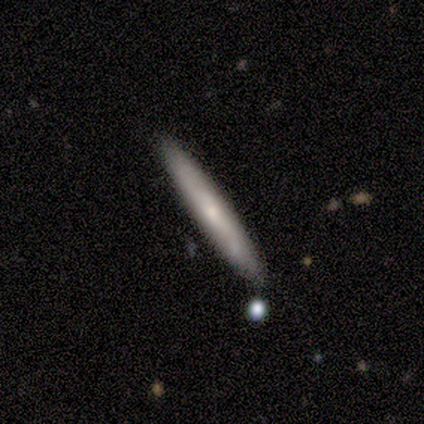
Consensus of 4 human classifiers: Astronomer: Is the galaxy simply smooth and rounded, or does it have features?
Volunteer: smooth — 100%.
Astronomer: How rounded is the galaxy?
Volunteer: cigar-shaped — 100%.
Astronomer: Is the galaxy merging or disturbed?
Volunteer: none — 100%.